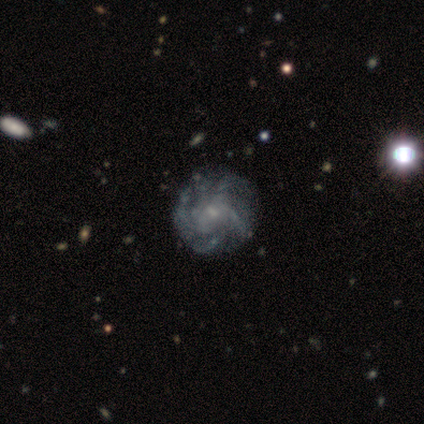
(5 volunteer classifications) A featured or disk galaxy (100%) with no bar (80%), more than 4 (60%) tight (60%) spiral arms (100%) and a moderate central bulge (40%, tied with small). Merging: none (60%).